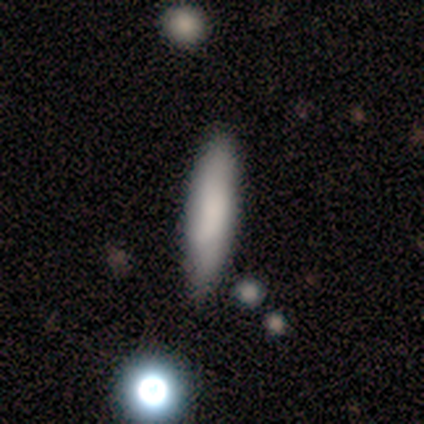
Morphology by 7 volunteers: A smooth galaxy with no disk features (100%) that is cigar-shaped (86%).

Vote fractions:
- Smooth or featured? smooth: 100% / featured or disk: 0% / star or artifact: 0%
- How rounded? cigar-shaped: 86% / in between: 14% / round: 0%
- Merging? none: 100% / minor disturbance: 0% / major disturbance: 0% / merger: 0%